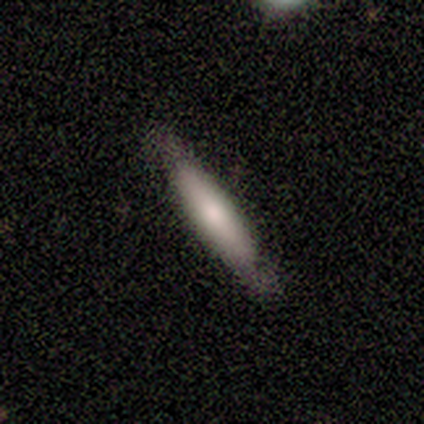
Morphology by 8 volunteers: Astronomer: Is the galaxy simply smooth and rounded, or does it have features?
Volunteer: smooth — 50%, tied with featured or disk at 50%.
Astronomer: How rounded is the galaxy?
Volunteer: cigar-shaped — 100%.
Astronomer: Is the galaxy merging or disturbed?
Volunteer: none — 100%.